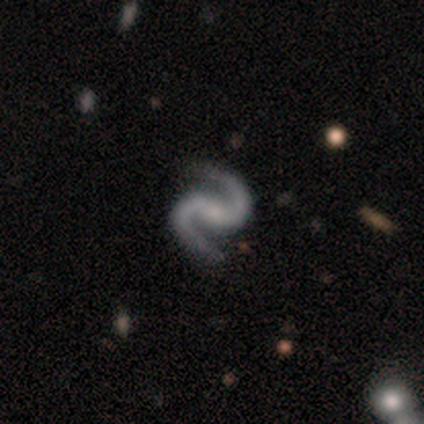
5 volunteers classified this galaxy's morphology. A featured or disk galaxy (100%) with a weak bar (80%), 2 (100%) medium (80%) spiral arms (100%) and a moderate central bulge (40%, tied with none).

Vote fractions:
- Smooth or featured? featured or disk: 100% / smooth: 0% / star or artifact: 0%
- Edge-on disk? no: 100% / yes: 0%
- Bar? weak: 80% / strong: 20% / no: 0%
- Spiral arms? yes: 100% / no: 0%
- Spiral winding? medium: 80% / tight: 20% / loose: 0%
- Spiral arm count? 2: 100% / 1: 0% / 3: 0% / 4: 0% / more than 4: 0% / can't tell: 0%
- Bulge size? moderate: 40% (tied) / none: 40% (tied) / small: 20% / dominant: 0% / large: 0%
- Merging? none: 60% / minor disturbance: 20% / major disturbance: 20% / merger: 0%